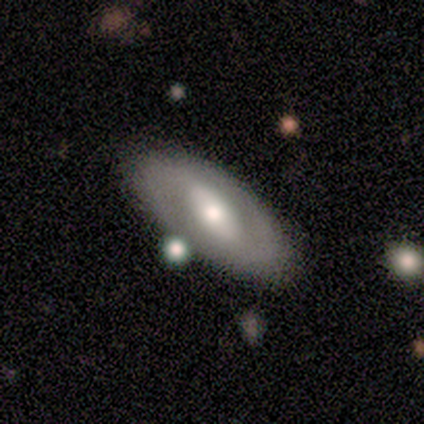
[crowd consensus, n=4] Smooth or featured? smooth (75%)
How rounded? in between (100%)
Merging? none (75%)